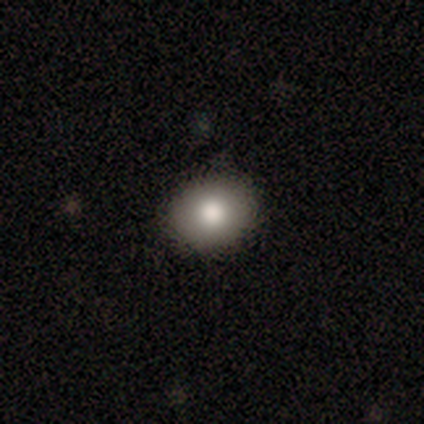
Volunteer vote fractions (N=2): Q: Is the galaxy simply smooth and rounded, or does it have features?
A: smooth — 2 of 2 (100%).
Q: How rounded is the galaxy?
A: in between — 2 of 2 (100%).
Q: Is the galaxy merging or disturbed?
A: none — 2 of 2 (100%).